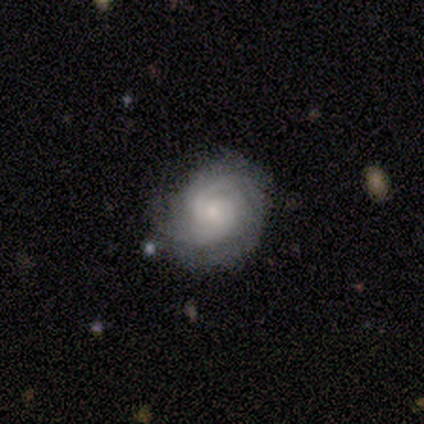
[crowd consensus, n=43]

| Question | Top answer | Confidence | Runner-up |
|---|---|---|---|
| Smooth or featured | featured or disk | 77% | smooth (16%) |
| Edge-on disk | no | 97% | yes (3%) |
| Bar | no | 78% | weak (22%) |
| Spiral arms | yes | 100% | — |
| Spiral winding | tight | 81% | medium (16%) |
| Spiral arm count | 2 | 50% | can't tell (28%) |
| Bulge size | small | 50% | moderate (31%) |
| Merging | none | 70% | minor disturbance (25%) |